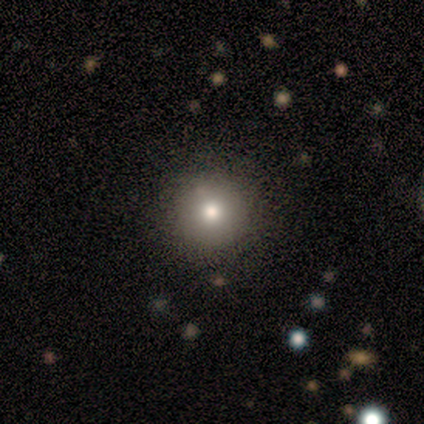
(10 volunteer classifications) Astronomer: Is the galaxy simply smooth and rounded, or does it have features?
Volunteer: smooth — 80%.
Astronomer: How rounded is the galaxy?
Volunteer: round — 100%.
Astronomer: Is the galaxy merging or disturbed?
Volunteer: none — 89%.